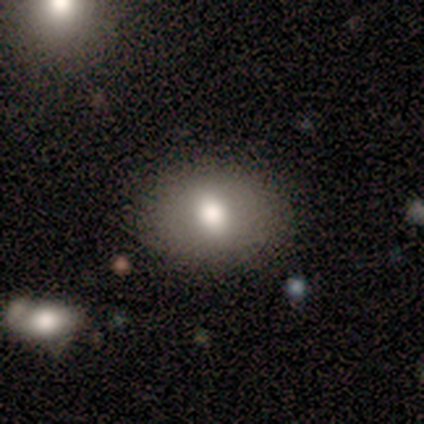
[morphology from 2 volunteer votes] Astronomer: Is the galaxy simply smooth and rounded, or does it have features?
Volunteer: smooth — 50%, tied with featured or disk at 50%.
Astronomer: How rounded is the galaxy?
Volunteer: in between — 100%.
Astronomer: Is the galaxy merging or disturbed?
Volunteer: none — 50%, tied with merger at 50%.